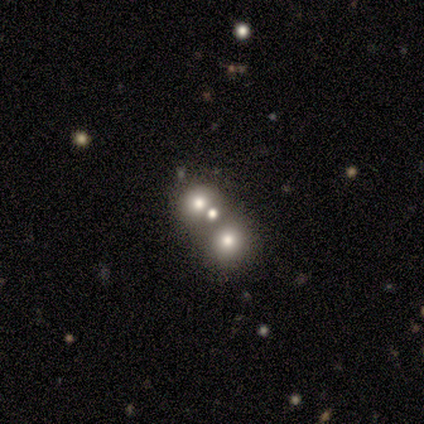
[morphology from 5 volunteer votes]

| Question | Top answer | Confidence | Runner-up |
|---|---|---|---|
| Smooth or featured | smooth | 40% | tied: featured or disk (40%) |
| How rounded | round | 100% | — |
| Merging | none | 50% | tied: merger (50%) |